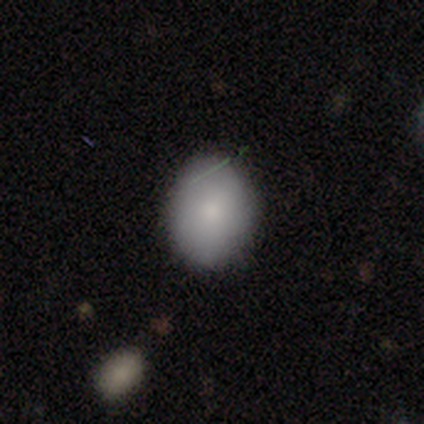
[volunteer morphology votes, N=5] Smooth or featured? smooth (100%)
How rounded? in between (100%)
Merging? none (60%)